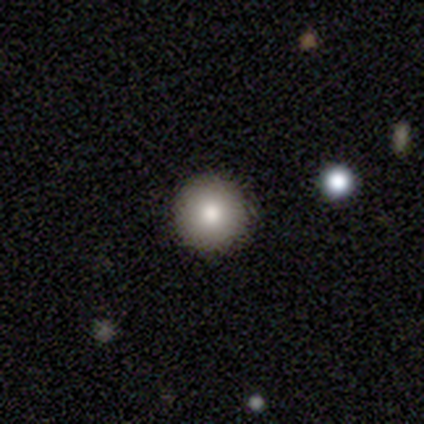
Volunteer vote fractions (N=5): Morphology: type=smooth (60%); roundness=round (100%); merging=none (75%).